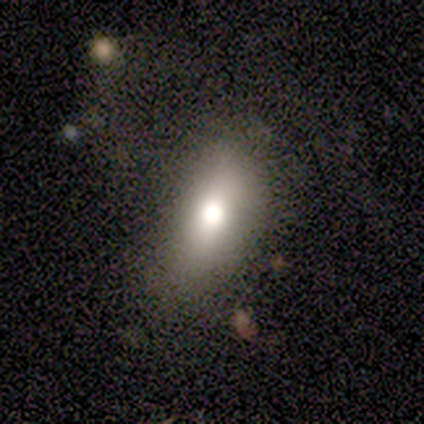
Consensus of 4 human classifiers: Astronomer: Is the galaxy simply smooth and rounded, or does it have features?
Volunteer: smooth — 50%.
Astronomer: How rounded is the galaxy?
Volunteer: in between — 100%.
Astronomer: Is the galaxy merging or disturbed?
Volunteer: none — 100%.